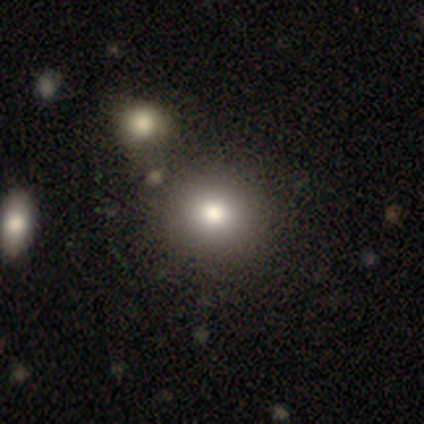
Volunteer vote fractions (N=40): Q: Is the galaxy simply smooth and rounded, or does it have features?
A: smooth — 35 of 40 (88%).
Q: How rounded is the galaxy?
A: round — 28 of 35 (80%).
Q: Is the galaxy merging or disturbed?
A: none — 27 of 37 (73%).